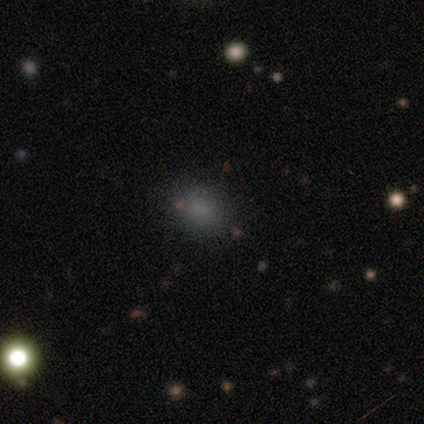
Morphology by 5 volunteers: A smooth galaxy with no disk features (60%) that is in between round and cigar-shaped (67%). Merging: none (100%).